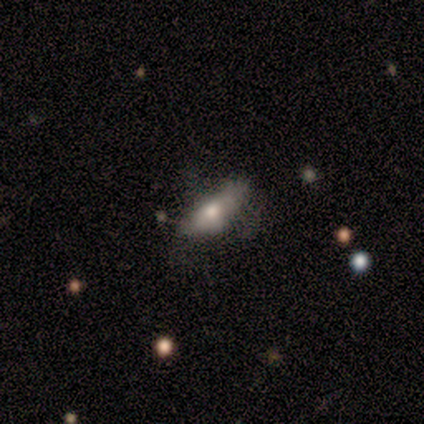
This appears to be a smooth galaxy with no disk features (100%) that is in between round and cigar-shaped (60%). Merging: minor disturbance (40%, tied with major disturbance).